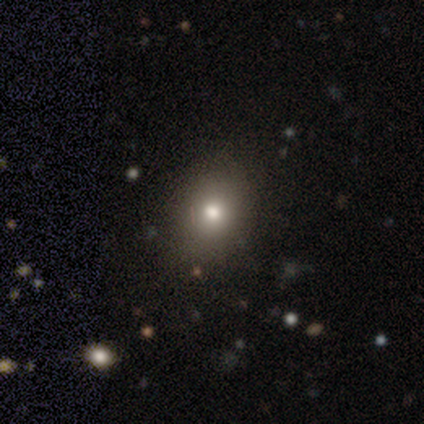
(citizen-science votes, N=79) Smooth or featured? smooth (72%)
How rounded? round (65%)
Merging? none (48%)